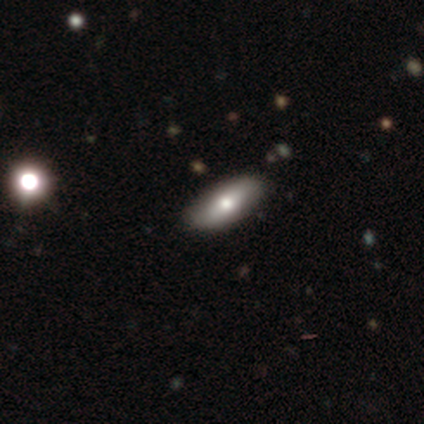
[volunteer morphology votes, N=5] Q: Smooth or featured?
A: smooth (60%); runner-up: featured or disk (20%)
Q: How rounded?
A: in between (67%); runner-up: cigar-shaped (33%)
Q: Merging?
A: none (100%)